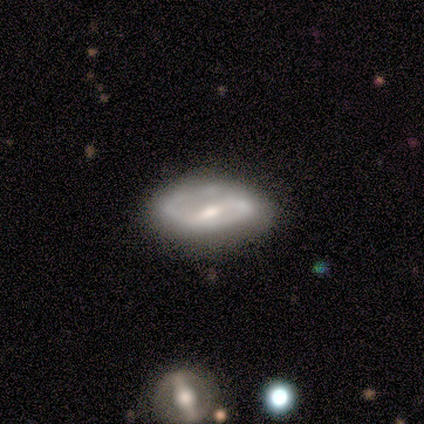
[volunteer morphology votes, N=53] smooth-or-featured: featured or disk: 75% | smooth: 17% | star or artifact: 8%
  disk-edge-on: no: 92% | yes: 8%
    bar: weak: 57% | strong: 30% | no: 14%
    has-spiral-arms: yes: 76% | no: 24%
      spiral-winding: tight: 43% | medium: 39% | loose: 18%
      spiral-arm-count: 2: 79% | 1: 14% | can't tell: 7% | 3: 0% | 4: 0% | more than 4: 0%
    bulge-size: moderate: 62% | small: 32% | dominant: 3% | none: 3% | large: 0%
  merging: none: 73% | minor disturbance: 20% | major disturbance: 4% | merger: 2%